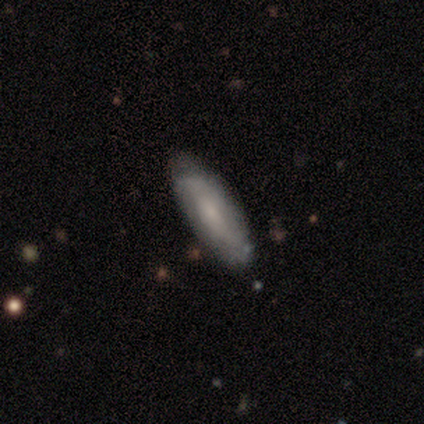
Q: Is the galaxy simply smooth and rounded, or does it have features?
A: smooth — 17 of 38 (45%, tied with featured or disk).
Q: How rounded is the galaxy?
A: cigar-shaped — 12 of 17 (71%).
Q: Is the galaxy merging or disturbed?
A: none — 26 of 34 (76%).